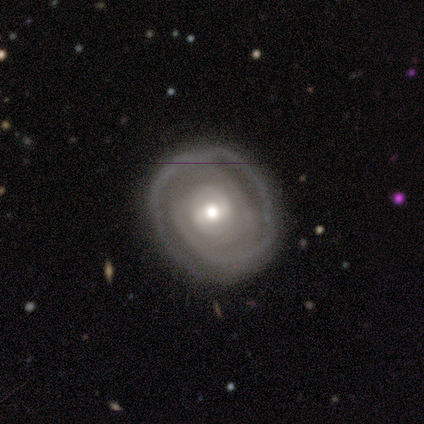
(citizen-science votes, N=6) smooth_or_featured: featured or disk (p=0.83) [alt: smooth p=0.17]
disk_edge_on: no (p=1.00)
bar: weak (p=0.80) [alt: strong p=0.20]
has_spiral_arms: yes (p=1.00)
spiral_winding: tight (p=1.00)
spiral_arm_count: 1 (p=0.40) [tied with: 2 p=0.40]
bulge_size: moderate (p=0.80) [alt: small p=0.20]
merging: none (p=0.67) [alt: minor disturbance p=0.33]